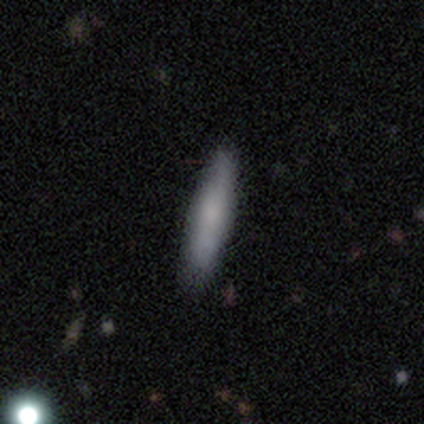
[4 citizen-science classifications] A smooth galaxy with no disk features (100%) that is cigar-shaped (100%).

Vote fractions:
- Smooth or featured? smooth: 100% / featured or disk: 0% / star or artifact: 0%
- How rounded? cigar-shaped: 100% / round: 0% / in between: 0%
- Merging? none: 75% / minor disturbance: 25% / major disturbance: 0% / merger: 0%